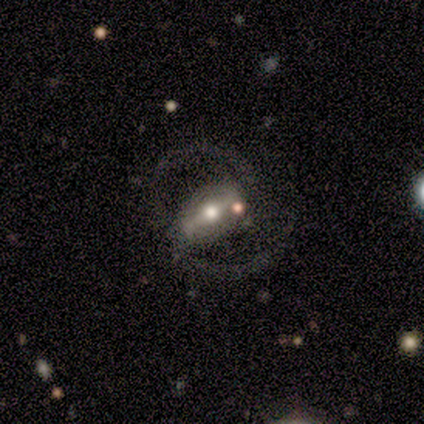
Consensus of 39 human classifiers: Q: Smooth or featured?
A: featured or disk (87%); runner-up: star or artifact (10%)
Q: Edge-on disk?
A: no (97%); runner-up: yes (3%)
Q: Bar?
A: strong (61%); runner-up: weak (27%)
Q: Spiral arms?
A: yes (79%); runner-up: no (21%)
Q: Spiral winding?
A: medium (69%); runner-up: loose (27%)
Q: Spiral arm count?
A: 2 (92%); runner-up: can't tell (8%)
Q: Bulge size?
A: moderate (55%); runner-up: small (24%)
Q: Merging?
A: none (46%); runner-up: major disturbance (34%)